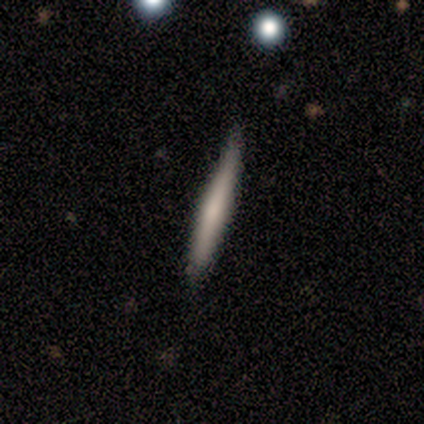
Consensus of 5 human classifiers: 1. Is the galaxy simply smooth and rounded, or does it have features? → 100% smooth, 0% featured or disk, 0% star or artifact.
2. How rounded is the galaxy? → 100% cigar-shaped, 0% round, 0% in between.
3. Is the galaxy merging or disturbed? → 80% none, 20% minor disturbance, 0% major disturbance, 0% merger.